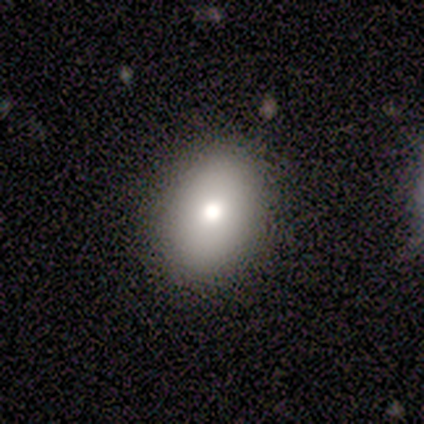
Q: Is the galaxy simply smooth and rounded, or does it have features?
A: smooth — 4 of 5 (80%).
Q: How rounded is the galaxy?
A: in between — 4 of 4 (100%).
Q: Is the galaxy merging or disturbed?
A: none — 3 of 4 (75%).